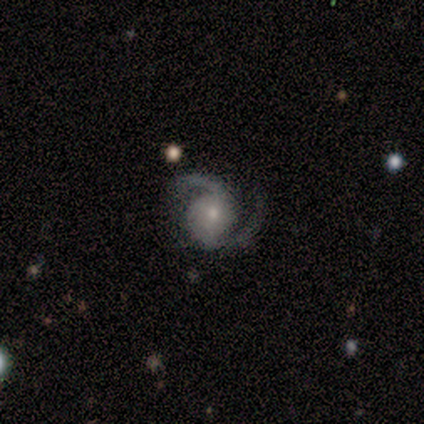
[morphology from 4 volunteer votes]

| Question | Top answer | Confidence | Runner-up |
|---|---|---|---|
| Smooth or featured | featured or disk | 100% | — |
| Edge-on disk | no | 100% | — |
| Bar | weak | 50% | tied: no (50%) |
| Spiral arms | yes | 100% | — |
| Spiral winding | medium | 50% | tight (25%) |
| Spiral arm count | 2 | 100% | — |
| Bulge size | small | 75% | moderate (25%) |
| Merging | none | 100% | — |